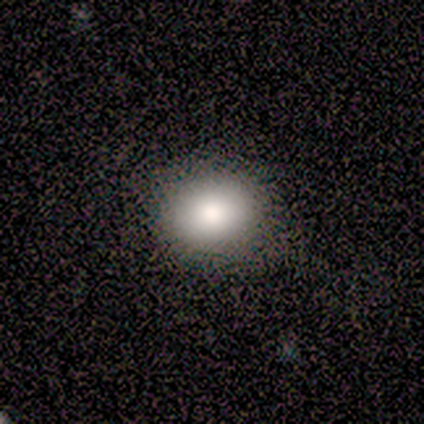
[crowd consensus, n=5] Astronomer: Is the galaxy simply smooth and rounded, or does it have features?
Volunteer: smooth — 100%.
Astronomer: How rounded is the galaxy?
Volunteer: round — 80%.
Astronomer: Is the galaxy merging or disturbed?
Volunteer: none — 80%.